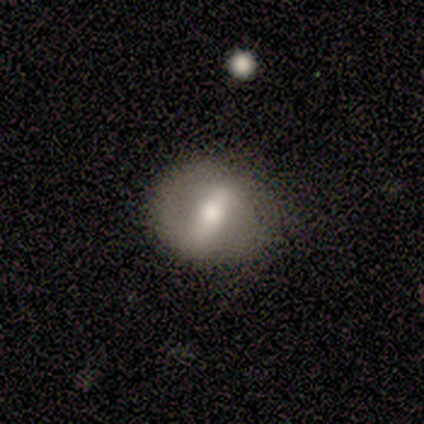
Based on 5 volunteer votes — Morphology: type=featured or disk (80%); edge-on=no (100%); bar=strong (50%, tied with weak); spiral arms=no (75%); bulge=moderate (75%); merging=none (100%).